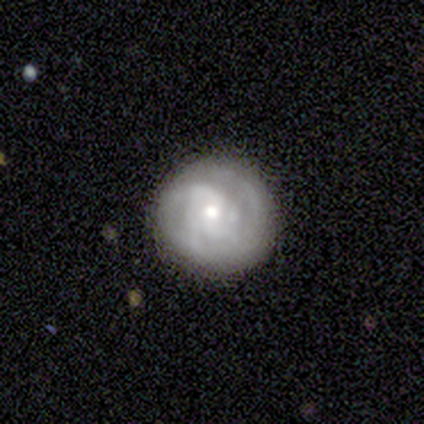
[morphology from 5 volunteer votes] featured or disk 80%, smooth 20%, star or artifact 0%. Down the decision tree: edge-on disk — no (100%); bar — weak (50%, tied with no); spiral arms — yes (100%); spiral arm count — 1 (25%, tied with 2, 3 and can't tell); spiral winding — tight (100%); bulge size — moderate (50%, tied with small); merging — none (80%).